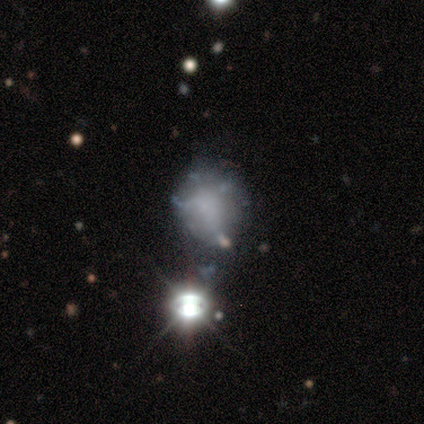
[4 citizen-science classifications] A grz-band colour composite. It shows a featured or disk galaxy (75%) with no bar (100%), no spiral arms (100%) and no central bulge (100%). Merging: none (50%).